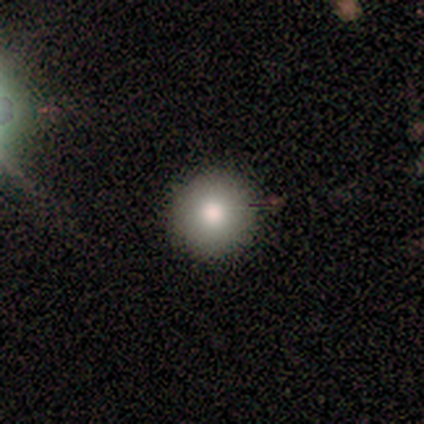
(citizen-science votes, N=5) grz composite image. It shows a smooth galaxy with no disk features (40%, tied with star or artifact) that is round (100%). Merging: none (100%).